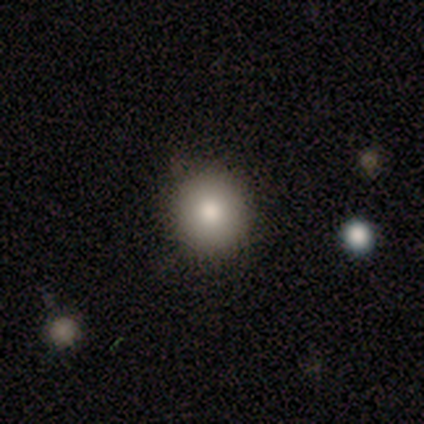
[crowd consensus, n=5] A smooth galaxy with no disk features (60%) that is round (100%). Merging: none (100%).